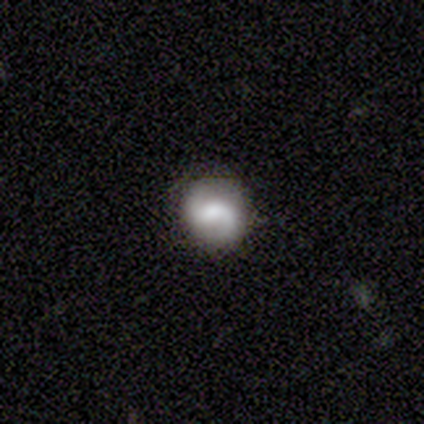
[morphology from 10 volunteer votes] smooth_or_featured: featured or disk (p=0.90) [alt: smooth p=0.10]
disk_edge_on: no (p=1.00)
bar: no (p=0.56) [alt: weak p=0.33]
has_spiral_arms: yes (p=1.00)
spiral_winding: medium (p=0.44) [tied with: loose p=0.44]
spiral_arm_count: 2 (p=0.89) [alt: 1 p=0.11]
bulge_size: moderate (p=0.56) [alt: small p=0.33]
merging: none (p=0.90) [alt: minor disturbance p=0.10]